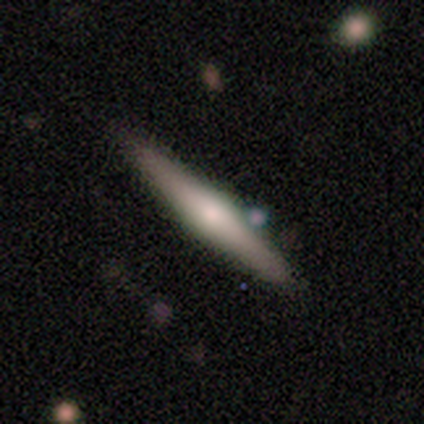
smooth-or-featured: featured or disk: 56% | smooth: 42% | star or artifact: 3%
  disk-edge-on: yes: 100% | no: 0%
    edge-on-bulge: rounded: 85% | none: 15% | boxy: 0%
  merging: none: 77% | minor disturbance: 17% | major disturbance: 3% | merger: 3%